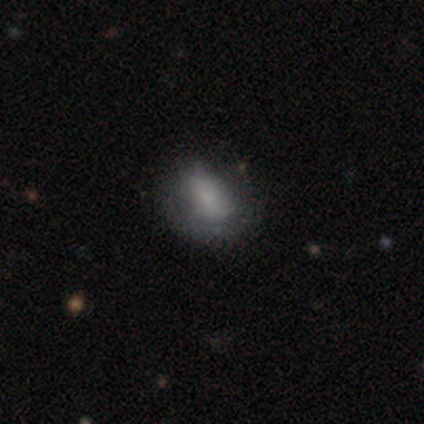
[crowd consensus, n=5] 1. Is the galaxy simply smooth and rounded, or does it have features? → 80% smooth, 20% star or artifact, 0% featured or disk.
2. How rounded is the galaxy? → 75% in between, 25% round, 0% cigar-shaped.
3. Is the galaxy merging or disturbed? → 100% none, 0% minor disturbance, 0% major disturbance, 0% merger.